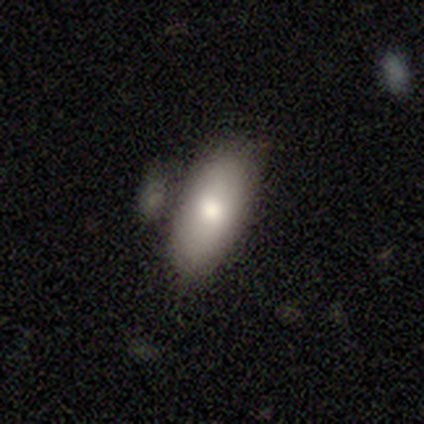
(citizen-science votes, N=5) Smooth or featured? 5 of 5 (100%) said smooth. How rounded? 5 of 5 (100%) said in between. Merging? 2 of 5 (40%, tied with minor disturbance) said none.